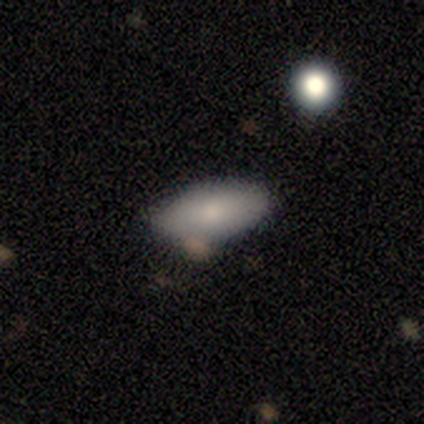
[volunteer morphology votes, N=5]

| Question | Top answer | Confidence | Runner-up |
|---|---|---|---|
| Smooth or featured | smooth | 60% | featured or disk (20%) |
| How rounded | in between | 67% | cigar-shaped (33%) |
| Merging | none | 75% | minor disturbance (25%) |